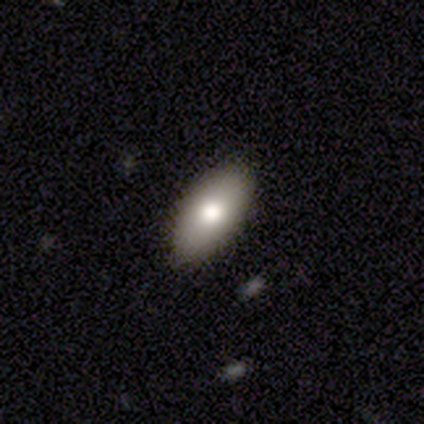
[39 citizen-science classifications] smooth 90%, featured or disk 5%, star or artifact 5%. Down the decision tree: how rounded — in between (80%); merging — none (92%).